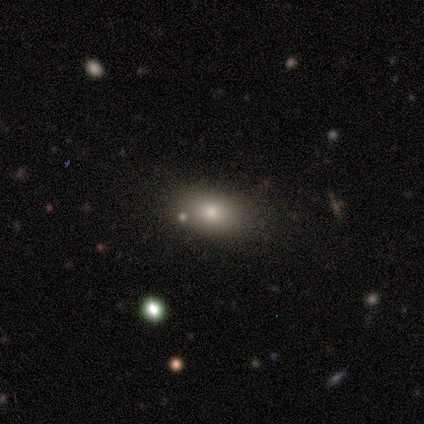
A smooth galaxy with no disk features (80%) that is in between round and cigar-shaped (88%).

Vote fractions:
- Smooth or featured? smooth: 80% / star or artifact: 20% / featured or disk: 0%
- How rounded? in between: 88% / round: 12% / cigar-shaped: 0%
- Merging? none: 88% / minor disturbance: 12% / major disturbance: 0% / merger: 0%